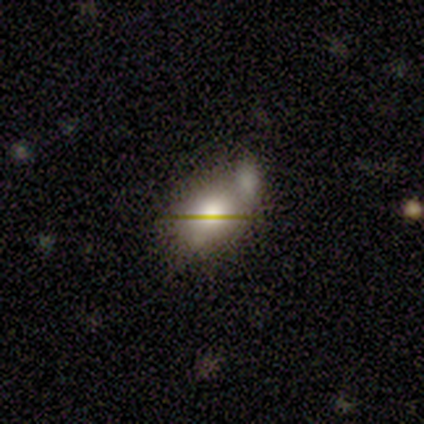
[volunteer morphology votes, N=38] A smooth galaxy with no disk features (58%) that is in between round and cigar-shaped (77%). Merging: merger (39%).